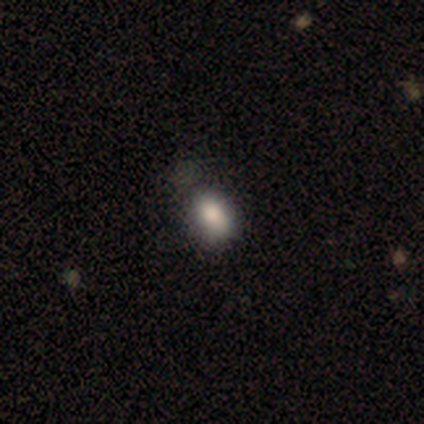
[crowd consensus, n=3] This is clearly a smooth galaxy (100%). How rounded: likely in between (67%). Merging: likely none (67%).